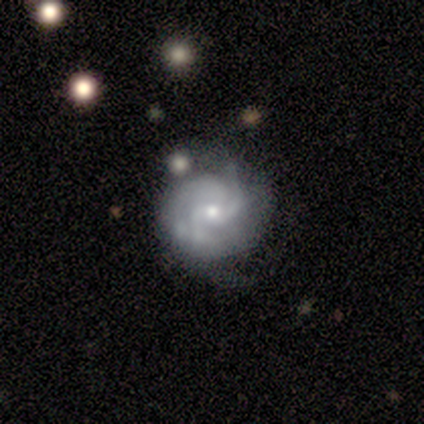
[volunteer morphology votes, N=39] This is clearly a featured or disk galaxy (95%). It is clearly not viewed edge-on (100%). Bar: likely no (73%). Spiral arm pattern: clearly yes (95%). Spiral arm count: marginally 3 (40%). Spiral winding: marginally tight (43%, tied with medium). Central bulge: likely small (70%). Merging: possibly none (56%).